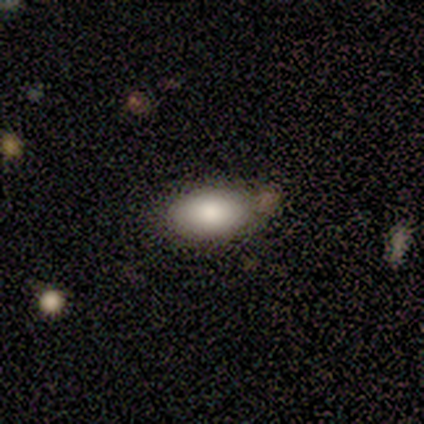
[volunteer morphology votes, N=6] This appears to be a smooth galaxy with no disk features (100%) that is in between round and cigar-shaped (83%). Merging: none (67%).